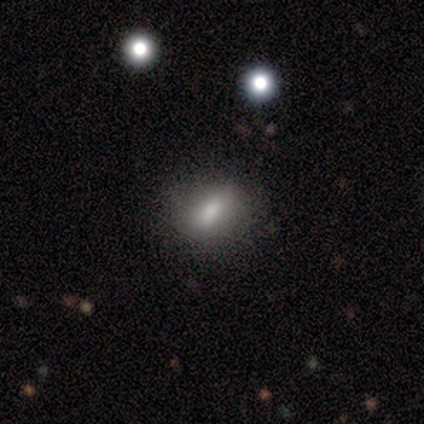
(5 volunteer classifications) Overall: smooth (80%). How rounded: in between (75%). Merging: none (80%).